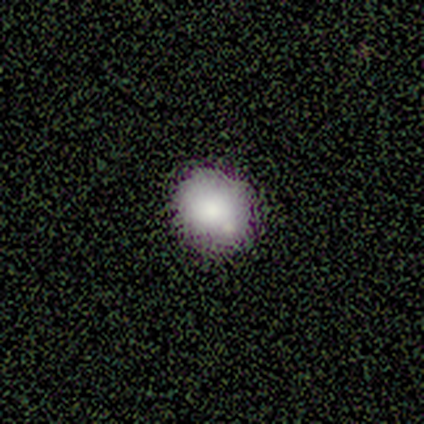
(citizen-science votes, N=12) A smooth galaxy with no disk features (67%) that is round (75%).

Vote fractions:
- Smooth or featured? smooth: 67% / star or artifact: 25% / featured or disk: 8%
- How rounded? round: 75% / in between: 25% / cigar-shaped: 0%
- Merging? none: 67% / minor disturbance: 33% / major disturbance: 0% / merger: 0%